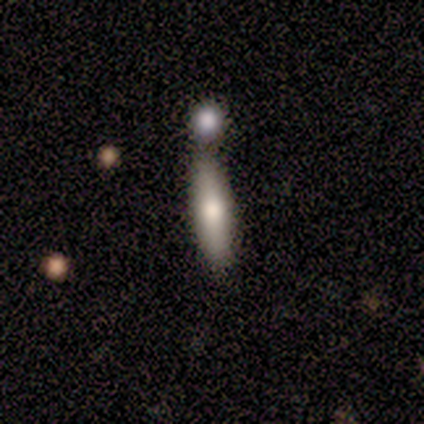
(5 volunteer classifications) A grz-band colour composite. It shows a featured or disk galaxy (80%) viewed edge-on (75%) with a rounded central bulge (100%). Merging: none (80%).